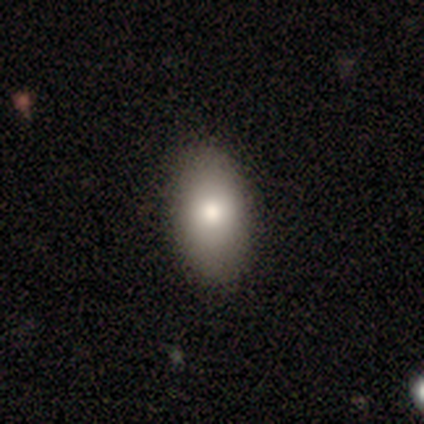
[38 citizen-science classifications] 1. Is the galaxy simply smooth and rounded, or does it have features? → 82% smooth, 18% featured or disk, 0% star or artifact.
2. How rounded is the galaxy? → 94% in between, 3% round, 3% cigar-shaped.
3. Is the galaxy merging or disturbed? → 58% none, 5% minor disturbance, 3% merger, 0% major disturbance.